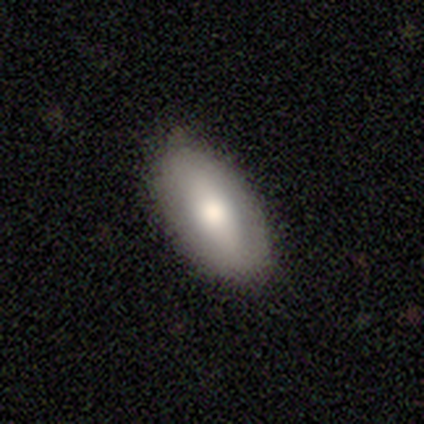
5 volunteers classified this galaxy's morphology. This appears to be a smooth galaxy with no disk features (60%) that is in between round and cigar-shaped (100%). Merging: none (80%).